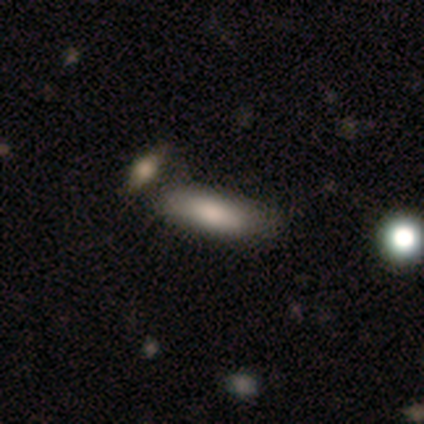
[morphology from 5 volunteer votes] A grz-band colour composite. It shows a smooth galaxy with no disk features (100%) that is in between round and cigar-shaped (60%). Merging: none (60%).